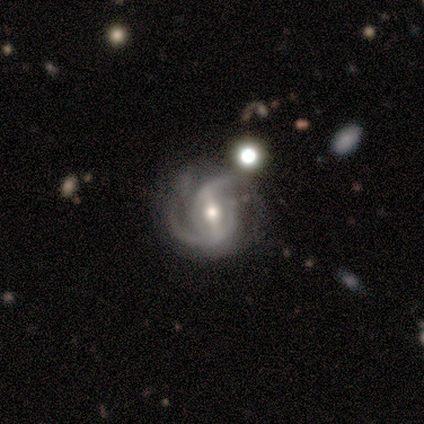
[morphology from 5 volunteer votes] featured or disk 80%, star or artifact 20%, smooth 0%. Down the decision tree: edge-on disk — no (100%); bar — no (50%); spiral arms — yes (100%); spiral arm count — 2 (100%); spiral winding — tight (75%); bulge size — moderate (50%, tied with small); merging — none (75%).